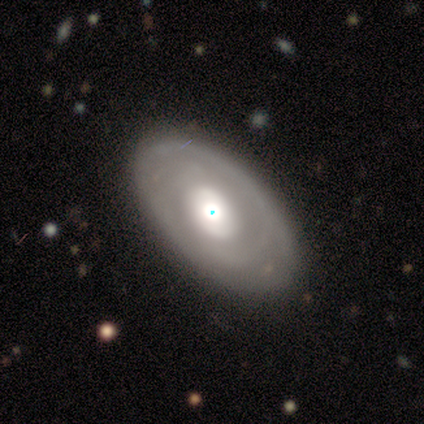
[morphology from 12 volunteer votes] Overall: smooth (42%, tied with featured or disk). How rounded: in between (100%). Merging: none (80%).